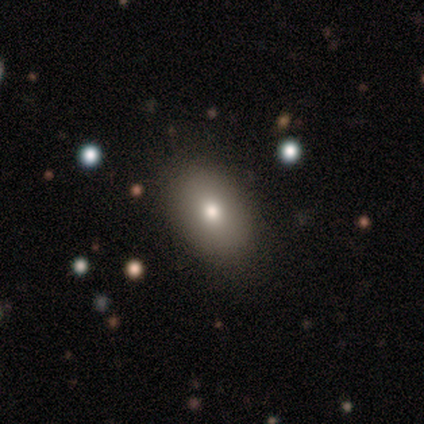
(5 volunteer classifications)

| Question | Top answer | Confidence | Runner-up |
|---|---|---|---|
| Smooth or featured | star or artifact | 60% | smooth (40%) |